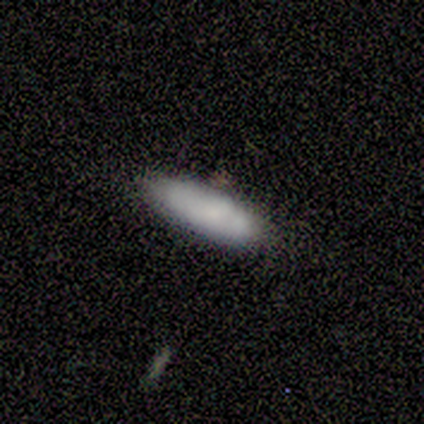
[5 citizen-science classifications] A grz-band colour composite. It shows a smooth galaxy with no disk features (80%) that is in between round and cigar-shaped (50%, tied with cigar-shaped). Merging: none (60%).